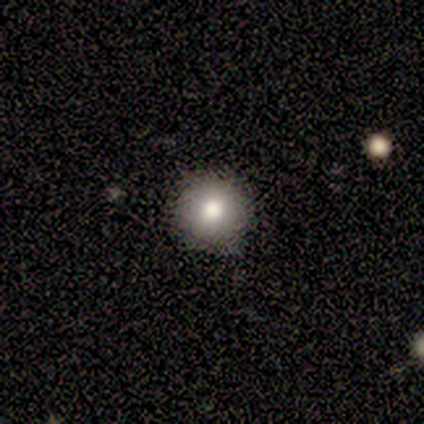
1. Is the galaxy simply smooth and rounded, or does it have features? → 100% smooth, 0% featured or disk, 0% star or artifact.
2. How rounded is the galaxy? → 80% round, 20% in between, 0% cigar-shaped.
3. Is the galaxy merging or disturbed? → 100% none, 0% minor disturbance, 0% major disturbance, 0% merger.